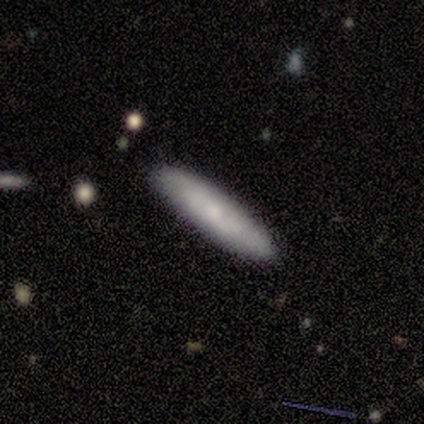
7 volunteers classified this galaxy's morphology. A featured or disk galaxy (57%) with a weak bar (50%, tied with no), no spiral arms (75%) and a small central bulge (50%). Merging: none (86%).